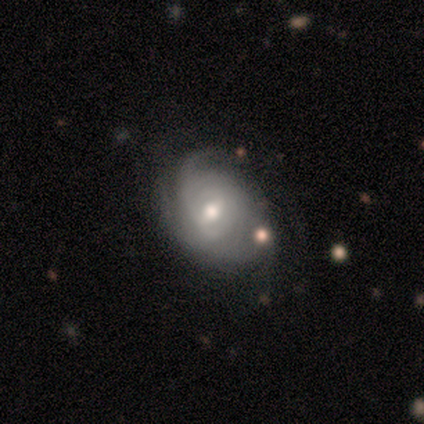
smooth-or-featured: featured or disk: 80% | star or artifact: 20% | smooth: 0%
  disk-edge-on: no: 100% | yes: 0%
    bar: weak: 75% | no: 25% | strong: 0%
    has-spiral-arms: yes: 100% | no: 0%
      spiral-winding: tight: 50% | medium: 25% | loose: 25%
      spiral-arm-count: can't tell: 75% | 3: 25% | 1: 0% | 2: 0% | 4: 0% | more than 4: 0%
    bulge-size: moderate: 75% | small: 25% | dominant: 0% | large: 0% | none: 0%
  merging: none: 75% | minor disturbance: 25% | major disturbance: 0% | merger: 0%